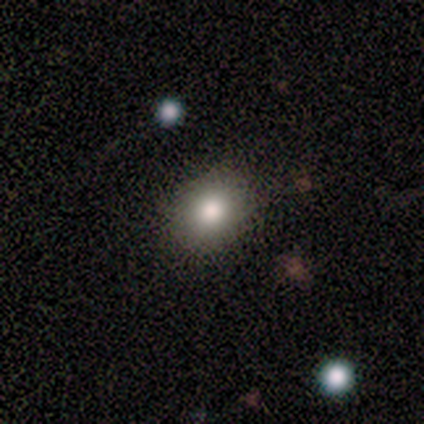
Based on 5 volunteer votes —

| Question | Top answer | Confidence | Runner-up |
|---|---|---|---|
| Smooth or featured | smooth | 60% | star or artifact (40%) |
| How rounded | in between | 67% | round (33%) |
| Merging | none | 100% | — |